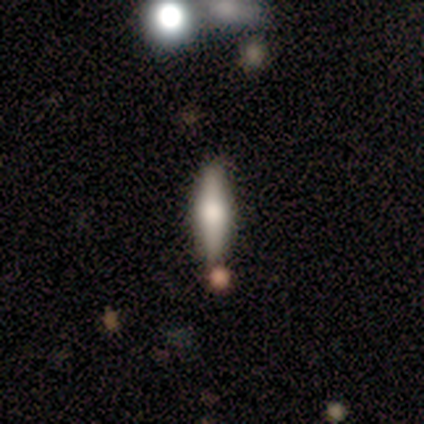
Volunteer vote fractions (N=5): This appears to be a smooth galaxy with no disk features (60%) that is cigar-shaped (67%). Merging: none (80%).